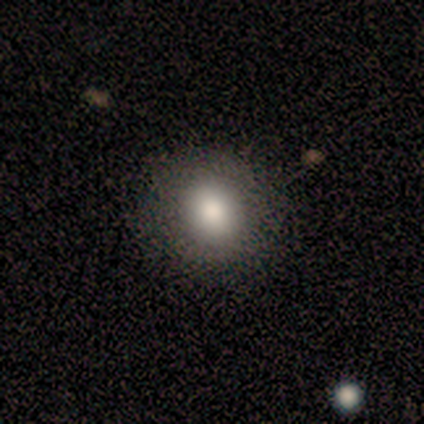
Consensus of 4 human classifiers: Overall: smooth (50%; featured or disk 25%). How rounded: in between (100%). Merging: none (100%).